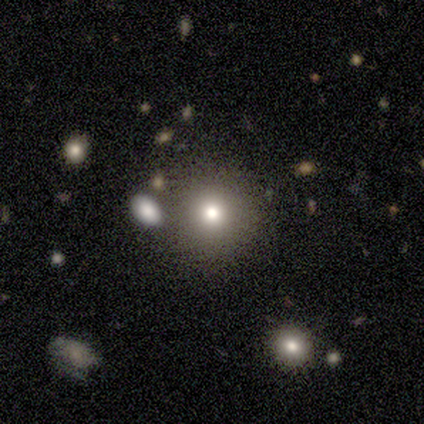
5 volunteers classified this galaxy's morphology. smooth-or-featured: smooth: 60% | star or artifact: 40% | featured or disk: 0%
  how-rounded: round: 67% | in between: 33% | cigar-shaped: 0%
  merging: none: 33% (tied) | major disturbance: 33% (tied) | merger: 33% (tied) | minor disturbance: 0%